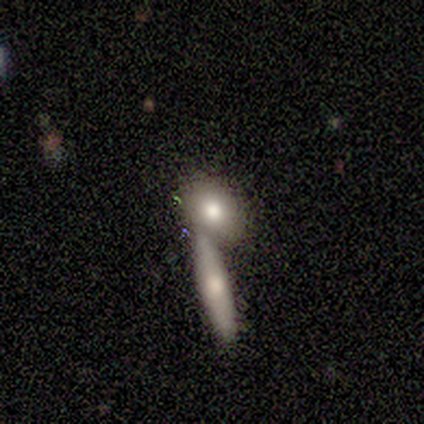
Smooth or featured? 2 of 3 (67%) said smooth. How rounded? 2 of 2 (100%) said in between. Merging? 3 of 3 (100%) said merger.